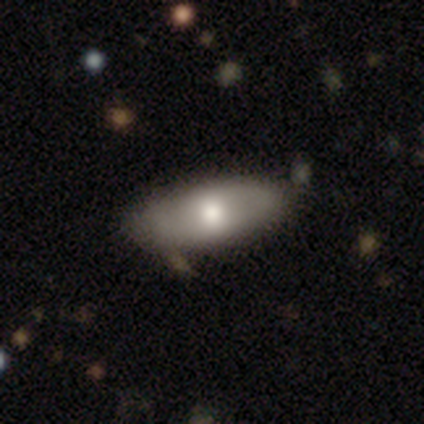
smooth-or-featured: smooth: 80% | featured or disk: 20% | star or artifact: 0%
  how-rounded: in between: 75% | cigar-shaped: 25% | round: 0%
  merging: none: 80% | minor disturbance: 20% | major disturbance: 0% | merger: 0%